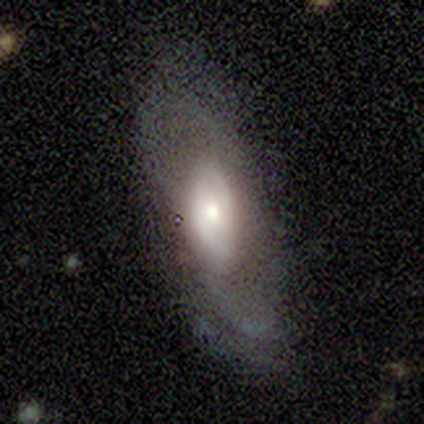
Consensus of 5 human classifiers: Smooth or featured: featured or disk — 60% (smooth — 40%)
Edge-on disk: no — 100%
Bar: no — 100%
Spiral arms: yes — 67% (no — 33%)
Spiral winding: tight — 100%
Spiral arm count: 2 — 100%
Bulge size: moderate — 100%
Merging: none — 60% (minor disturbance — 20%)